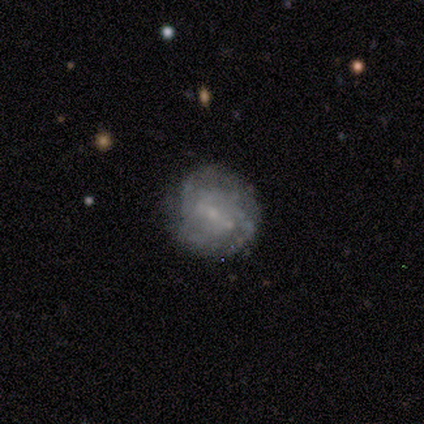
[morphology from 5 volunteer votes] featured or disk 100%, smooth 0%, star or artifact 0%. Down the decision tree: edge-on disk — no (100%); bar — weak (80%); spiral arms — yes (80%); spiral arm count — can't tell (75%); spiral winding — tight (50%, tied with medium); bulge size — moderate (40%, tied with small); merging — none (80%).